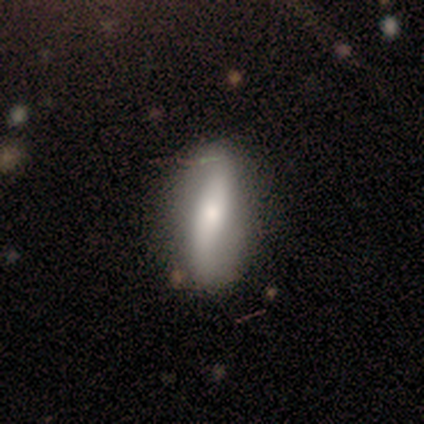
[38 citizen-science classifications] This appears to be a featured or disk galaxy (55%) with a strong bar (56%), 2 (100%) loose (75%) spiral arms (67%) and a small central bulge (50%). Merging: none (55%).